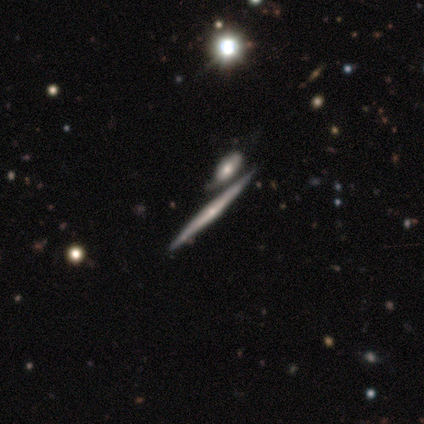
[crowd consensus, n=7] Q: Smooth or featured?
A: featured or disk (86%); runner-up: smooth (14%)
Q: Edge-on disk?
A: yes (100%)
Q: Edge-on bulge?
A: rounded (83%); runner-up: none (17%)
Q: Merging?
A: none (71%); runner-up: merger (29%)